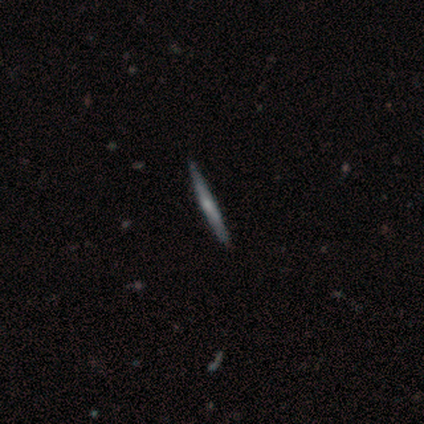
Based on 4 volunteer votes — Volunteers were most divided on "smooth or featured": featured or disk: 75%, smooth: 25%, star or artifact: 0%. More confident: edge-on disk — yes (100%); edge-on bulge — rounded (100%); merging — none (100%).